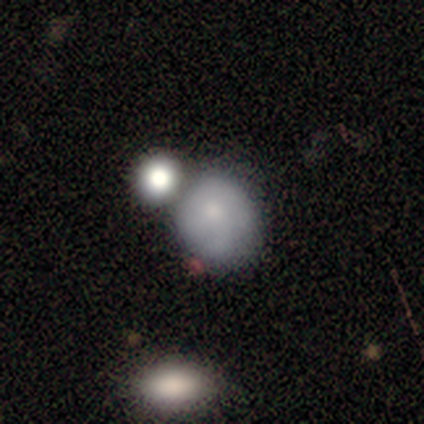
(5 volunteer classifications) A smooth galaxy with no disk features (60%) that is round (67%).

Vote fractions:
- Smooth or featured? smooth: 60% / featured or disk: 40% / star or artifact: 0%
- How rounded? round: 67% / in between: 33% / cigar-shaped: 0%
- Merging? minor disturbance: 40% / none: 20% / major disturbance: 20% / merger: 20%